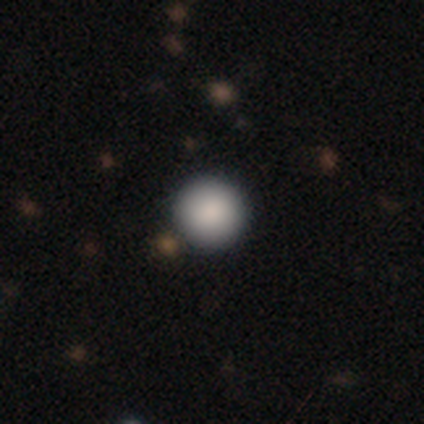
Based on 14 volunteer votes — smooth-or-featured: smooth: 86% | star or artifact: 14% | featured or disk: 0%
  how-rounded: round: 100% | in between: 0% | cigar-shaped: 0%
  merging: none: 83% | minor disturbance: 8% | merger: 8% | major disturbance: 0%